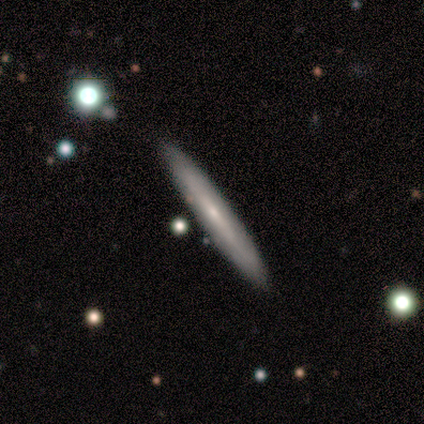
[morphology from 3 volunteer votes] Volunteers were most divided on "smooth or featured": smooth: 67%, featured or disk: 33%, star or artifact: 0%. More confident: how rounded — cigar-shaped (100%); merging — none (67%).